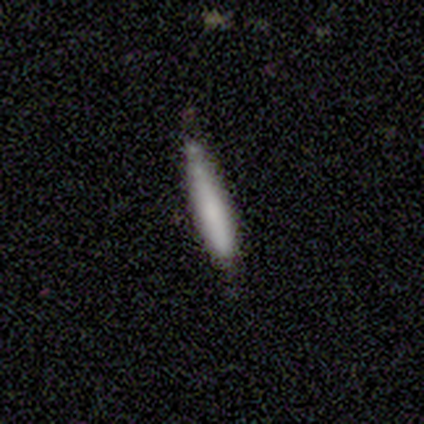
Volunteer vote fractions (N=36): Volunteers were most divided on "smooth or featured": smooth: 69%, featured or disk: 31%, star or artifact: 0%. More confident: how rounded — cigar-shaped (96%); merging — none (78%).